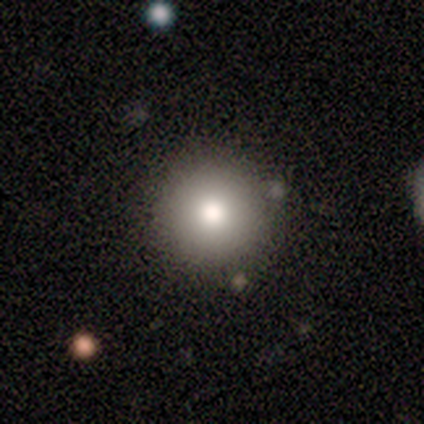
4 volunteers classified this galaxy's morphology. smooth_or_featured: smooth (p=1.00)
how_rounded: round (p=1.00)
merging: none (p=1.00)